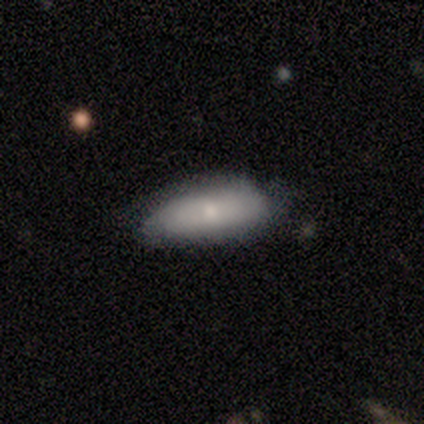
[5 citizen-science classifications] Smooth or featured? smooth (100%)
How rounded? in between (60%)
Merging? none (40%, tied with minor disturbance)